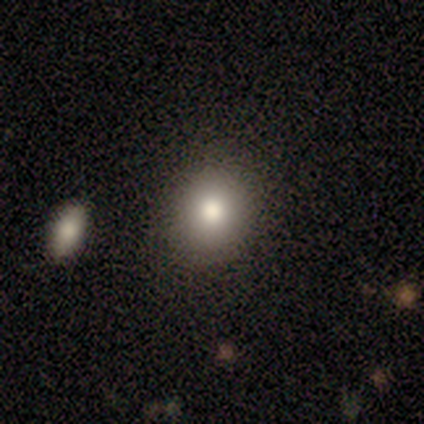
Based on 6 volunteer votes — Q: Smooth or featured?
A: smooth (100%)
Q: How rounded?
A: round (67%); runner-up: in between (33%)
Q: Merging?
A: none (67%); runner-up: minor disturbance (33%)